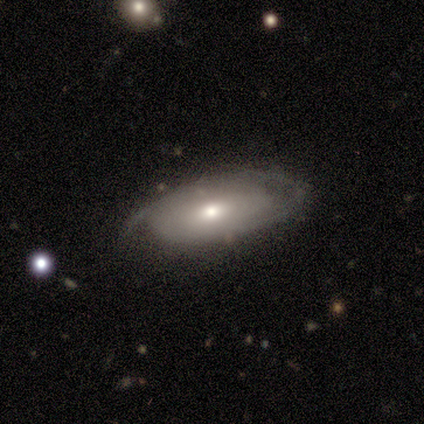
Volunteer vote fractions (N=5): featured or disk 80%, smooth 20%, star or artifact 0%. Down the decision tree: edge-on disk — no (100%); bar — weak (75%); spiral arms — yes (75%); spiral arm count — 2 (67%); spiral winding — tight (33%, tied with medium and loose); bulge size — small (50%); merging — none (60%).